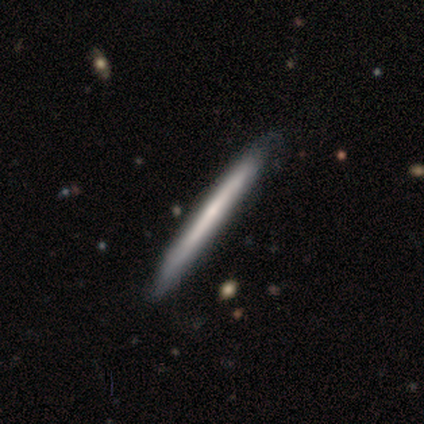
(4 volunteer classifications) This appears to be a smooth galaxy with no disk features (100%) that is cigar-shaped (100%). Merging: none (100%).